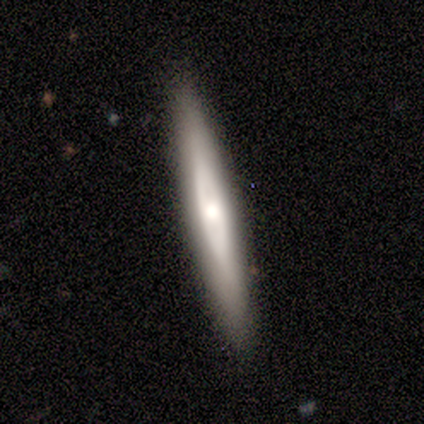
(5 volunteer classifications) A featured or disk galaxy (80%) viewed edge-on (50%, tied with no) with no central bulge (50%, tied with rounded). Merging: none (100%).